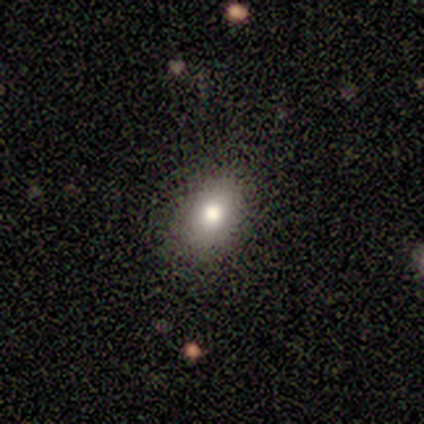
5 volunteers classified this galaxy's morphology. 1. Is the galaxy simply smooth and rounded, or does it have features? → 60% smooth, 40% star or artifact, 0% featured or disk.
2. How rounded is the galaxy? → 100% in between, 0% round, 0% cigar-shaped.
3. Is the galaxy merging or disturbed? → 100% none, 0% minor disturbance, 0% major disturbance, 0% merger.